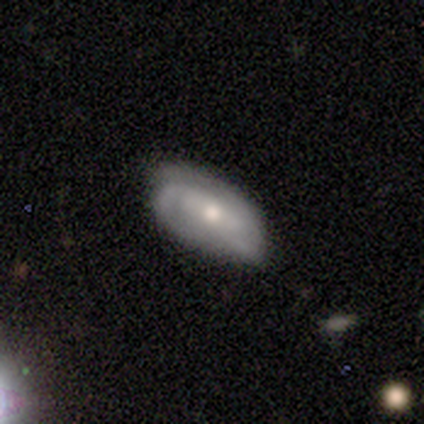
A featured or disk galaxy (100%) with no bar (80%), tight (60%) spiral arms (100%) and a moderate central bulge (60%).

Vote fractions:
- Smooth or featured? featured or disk: 100% / smooth: 0% / star or artifact: 0%
- Edge-on disk? no: 83% / yes: 17%
- Bar? no: 80% / weak: 20% / strong: 0%
- Spiral arms? yes: 100% / no: 0%
- Spiral winding? tight: 60% / medium: 40% / loose: 0%
- Spiral arm count? can't tell: 60% / 2: 40% / 1: 0% / 3: 0% / 4: 0% / more than 4: 0%
- Bulge size? moderate: 60% / small: 40% / dominant: 0% / large: 0% / none: 0%
- Merging? none: 67% / minor disturbance: 33% / major disturbance: 0% / merger: 0%